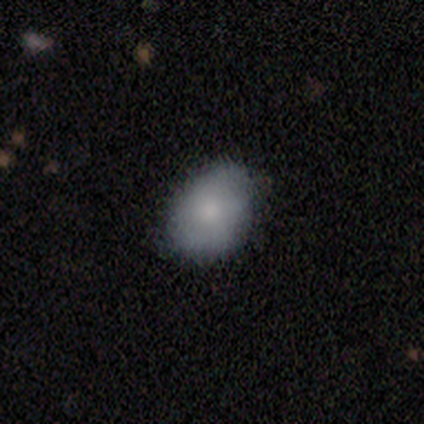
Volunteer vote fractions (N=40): smooth_or_featured: smooth (p=0.72) [alt: featured or disk p=0.28]
how_rounded: in between (p=0.72) [alt: round p=0.28]
merging: none (p=0.55) [alt: minor disturbance p=0.12]